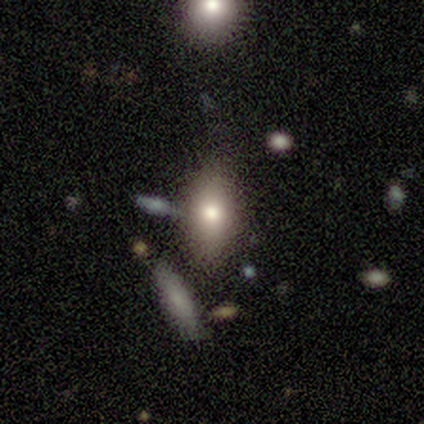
smooth-or-featured: smooth: 100% | featured or disk: 0% | star or artifact: 0%
  how-rounded: in between: 60% | cigar-shaped: 40% | round: 0%
  merging: none: 60% | major disturbance: 40% | minor disturbance: 0% | merger: 0%